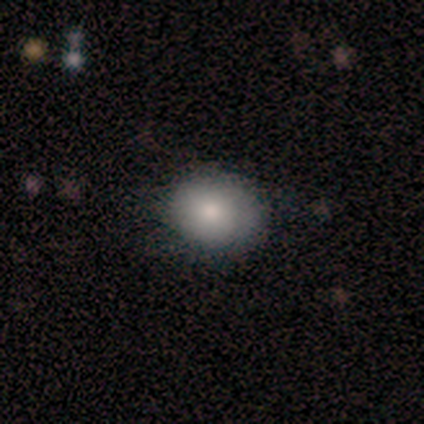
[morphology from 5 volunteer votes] Overall: smooth (80%). How rounded: round (75%). Merging: none (60%; minor disturbance 40%).